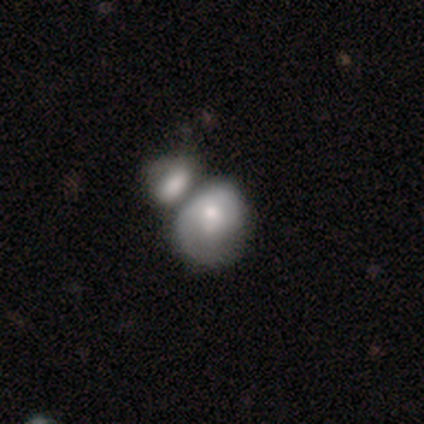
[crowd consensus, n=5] smooth-or-featured: featured or disk: 60% | smooth: 40% | star or artifact: 0%
  disk-edge-on: no: 100% | yes: 0%
    bar: no: 67% | strong: 33% | weak: 0%
    has-spiral-arms: yes: 67% | no: 33%
      spiral-winding: medium: 100% | tight: 0% | loose: 0%
      spiral-arm-count: 1: 50% (tied) | can't tell: 50% (tied) | 2: 0% | 3: 0% | 4: 0% | more than 4: 0%
    bulge-size: small: 67% | large: 33% | dominant: 0% | moderate: 0% | none: 0%
  merging: merger: 60% | none: 40% | minor disturbance: 0% | major disturbance: 0%